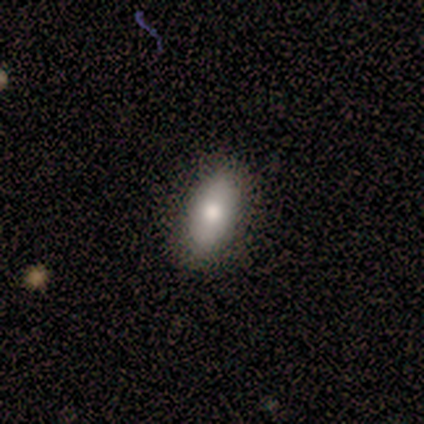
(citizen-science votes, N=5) Smooth or featured? 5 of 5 (100%) said smooth. How rounded? 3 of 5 (60%) said in between. Merging? 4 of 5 (80%) said none.